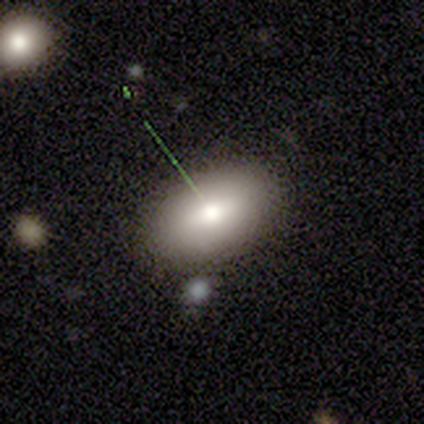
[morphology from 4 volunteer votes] A smooth galaxy with no disk features (100%) that is in between round and cigar-shaped (100%). Merging: none (100%).